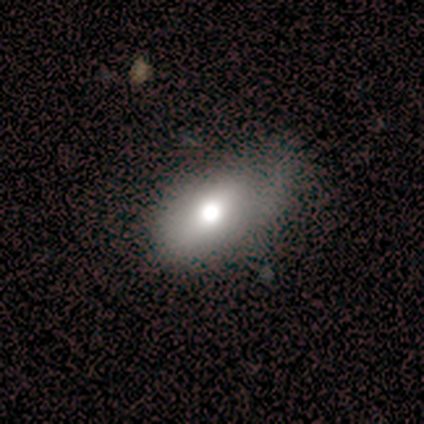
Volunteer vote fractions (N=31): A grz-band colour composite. It shows a smooth galaxy with no disk features (58%) that is in between round and cigar-shaped (83%). Merging: none (71%).